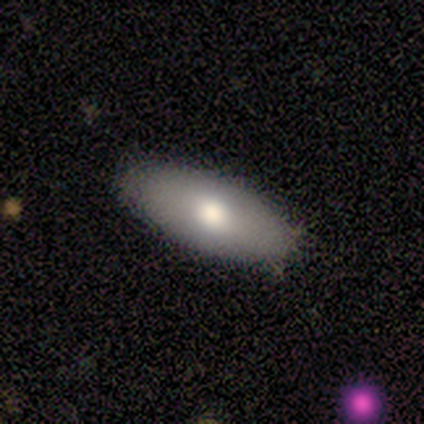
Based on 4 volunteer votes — smooth 75%, star or artifact 25%, featured or disk 0%. Down the decision tree: how rounded — in between (100%); merging — none (100%).